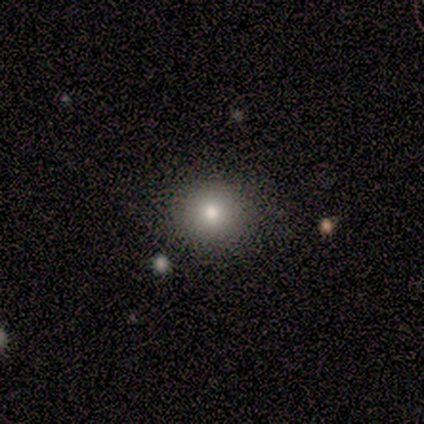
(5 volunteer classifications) Morphology: type=smooth (80%); roundness=round (100%); merging=none (75%).